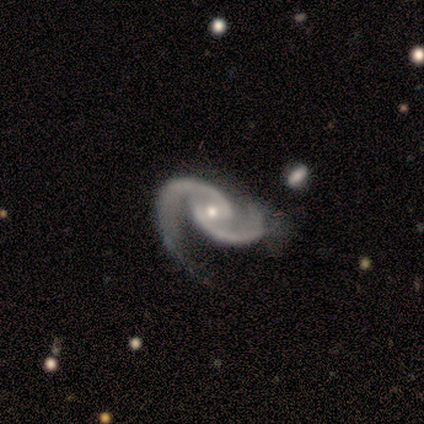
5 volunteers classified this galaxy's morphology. Q: Smooth or featured?
A: featured or disk (100%)
Q: Edge-on disk?
A: no (100%)
Q: Bar?
A: no (60%); runner-up: weak (40%)
Q: Spiral arms?
A: yes (100%)
Q: Spiral winding?
A: loose (60%); runner-up: medium (40%)
Q: Spiral arm count?
A: 2 (100%)
Q: Bulge size?
A: small (60%); runner-up: moderate (40%)
Q: Merging?
A: none (60%); runner-up: minor disturbance (20%)